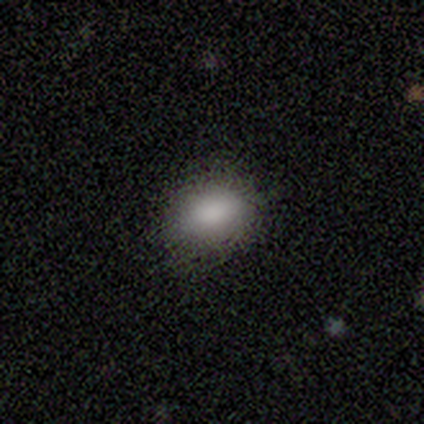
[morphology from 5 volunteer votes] A smooth galaxy with no disk features (100%) that is in between round and cigar-shaped (80%). Merging: none (80%).